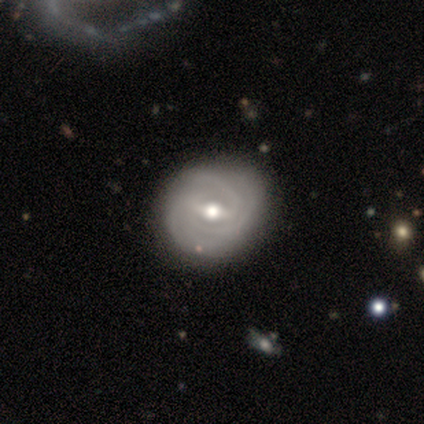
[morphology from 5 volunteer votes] A featured or disk galaxy (80%) with a weak bar (100%), 2 (50%) tight (75%) spiral arms (100%) and a moderate central bulge (75%). Merging: none (60%).